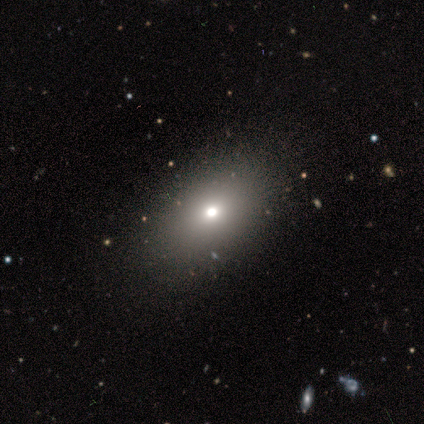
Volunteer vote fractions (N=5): Smooth or featured?
  - smooth: 80% *
  - star or artifact: 20%
  - featured or disk: 0%
How rounded?
  - in between: 75% *
  - round: 25%
  - cigar-shaped: 0%
Merging?
  - none: 50% *
  - major disturbance: 25%
  - merger: 25%
  - minor disturbance: 0%